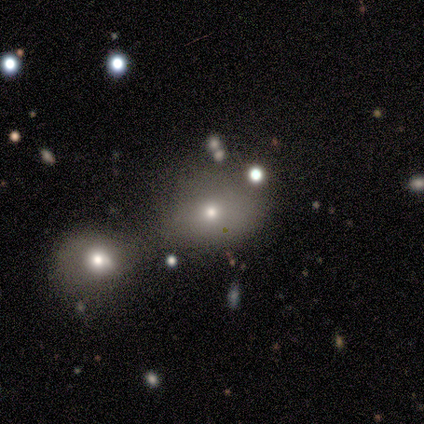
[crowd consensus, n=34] Morphology: type=smooth (88%); roundness=in between (70%); merging=merger (55%).